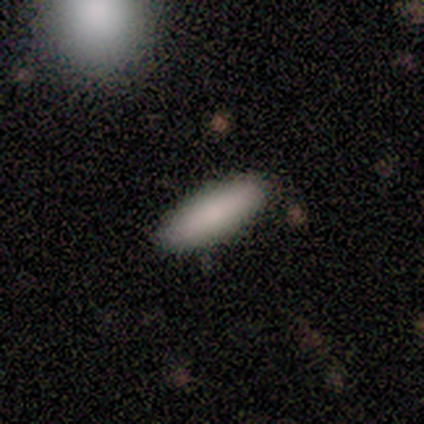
Smooth or featured? smooth (100%)
How rounded? cigar-shaped (80%)
Merging? none (100%)